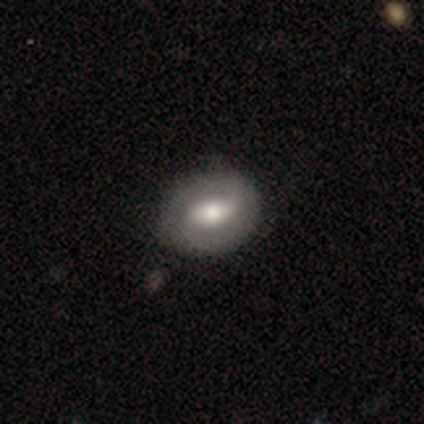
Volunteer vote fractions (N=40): Smooth or featured?
  - featured or disk: 60% *
  - smooth: 38%
  - star or artifact: 2%
Edge-on disk?
  - no: 96% *
  - yes: 4%
Bar?
  - strong: 48% *
  - weak: 35%
  - no: 17%
Spiral arms?
  - yes: 70% *
  - no: 30%
Spiral winding?
  - tight: 50% * (tied)
  - medium: 50% * (tied)
  - loose: 0%
Spiral arm count?
  - 2: 75% *
  - can't tell: 19%
  - 1: 6%
  - 3: 0%
  - 4: 0%
  - more than 4: 0%
Bulge size?
  - moderate: 65% *
  - large: 22%
  - small: 13%
  - dominant: 0%
  - none: 0%
Merging?
  - none: 64% *
  - minor disturbance: 13%
  - major disturbance: 3%
  - merger: 0%